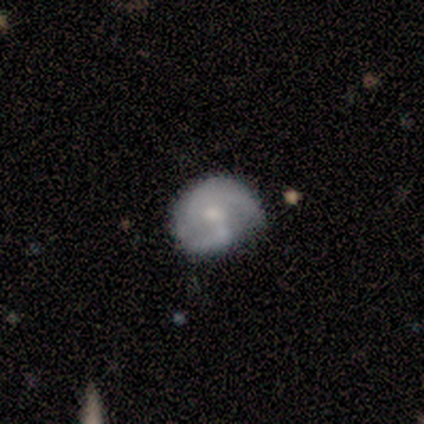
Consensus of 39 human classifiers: Smooth or featured?
  - featured or disk: 67% *
  - smooth: 21%
  - star or artifact: 13%
Edge-on disk?
  - no: 100% *
  - yes: 0%
Bar?
  - weak: 50% *
  - no: 46%
  - strong: 4%
Spiral arms?
  - yes: 92% *
  - no: 8%
Spiral winding?
  - medium: 50% *
  - tight: 42%
  - loose: 8%
Spiral arm count?
  - 2: 79% *
  - 1: 12%
  - can't tell: 8%
  - 3: 0%
  - 4: 0%
  - more than 4: 0%
Bulge size?
  - small: 54% *
  - moderate: 38%
  - none: 8%
  - dominant: 0%
  - large: 0%
Merging?
  - none: 65% *
  - minor disturbance: 32%
  - merger: 3%
  - major disturbance: 0%